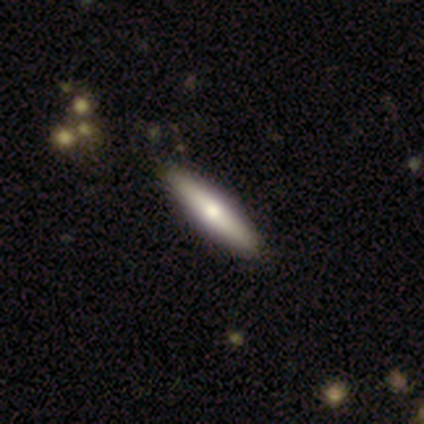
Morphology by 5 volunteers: Smooth or featured? 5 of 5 (100%) said smooth. How rounded? 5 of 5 (100%) said cigar-shaped. Merging? 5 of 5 (100%) said none.